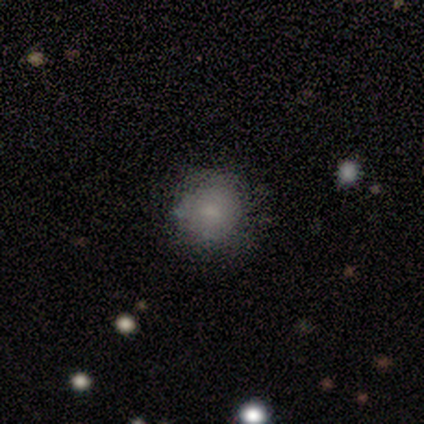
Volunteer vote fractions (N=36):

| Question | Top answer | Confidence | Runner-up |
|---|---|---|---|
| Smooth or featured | smooth | 81% | star or artifact (11%) |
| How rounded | round | 93% | in between (3%) |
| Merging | none | 84% | minor disturbance (9%) |